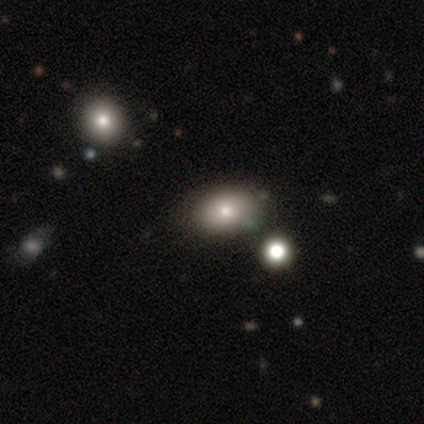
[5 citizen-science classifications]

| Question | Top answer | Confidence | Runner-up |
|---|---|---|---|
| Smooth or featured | featured or disk | 60% | smooth (40%) |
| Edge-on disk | no | 100% | — |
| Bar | no | 100% | — |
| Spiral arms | no | 100% | — |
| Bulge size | large | 33% | tied: moderate (33%), small (33%) |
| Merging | none | 60% | minor disturbance (40%) |